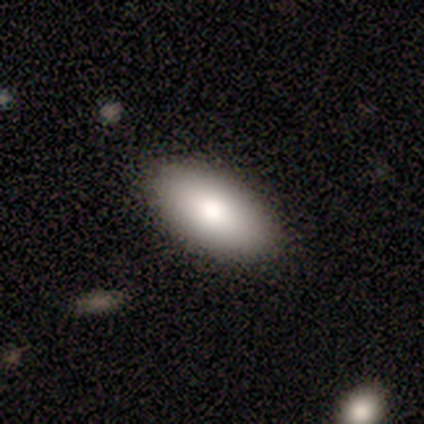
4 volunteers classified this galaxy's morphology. Smooth or featured: smooth — 100%
How rounded: in between — 100%
Merging: none — 75% (minor disturbance — 25%)